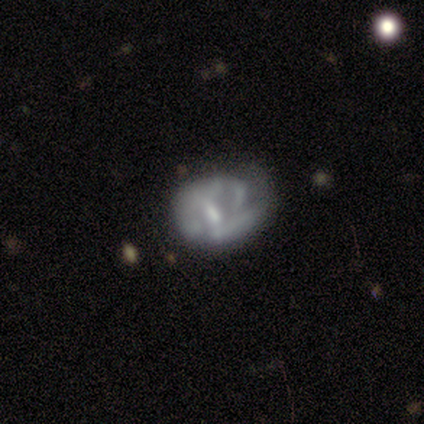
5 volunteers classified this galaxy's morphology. Q: Smooth or featured?
A: featured or disk (100%)
Q: Edge-on disk?
A: no (100%)
Q: Bar?
A: weak (100%)
Q: Spiral arms?
A: no (80%); runner-up: yes (20%)
Q: Bulge size?
A: none (80%); runner-up: moderate (20%)
Q: Merging?
A: major disturbance (80%); runner-up: none (20%)